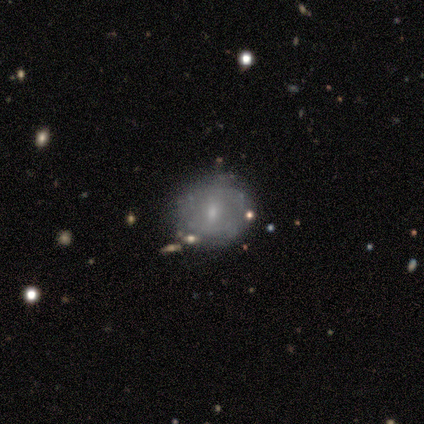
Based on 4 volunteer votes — smooth_or_featured: smooth (p=0.75) [alt: featured or disk p=0.25]
how_rounded: in between (p=0.67) [alt: round p=0.33]
merging: minor disturbance (p=0.75) [alt: none p=0.25]